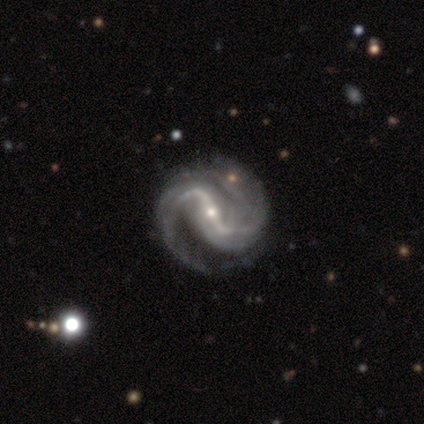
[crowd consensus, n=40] smooth_or_featured: featured or disk (p=0.97) [alt: smooth p=0.03]
disk_edge_on: no (p=1.00)
bar: strong (p=0.79) [alt: weak p=0.21]
has_spiral_arms: yes (p=1.00)
spiral_winding: medium (p=0.49) [alt: loose p=0.33]
spiral_arm_count: 2 (p=0.92) [alt: 1 p=0.03]
bulge_size: small (p=0.74) [alt: moderate p=0.26]
merging: none (p=0.50) [alt: minor disturbance p=0.17]